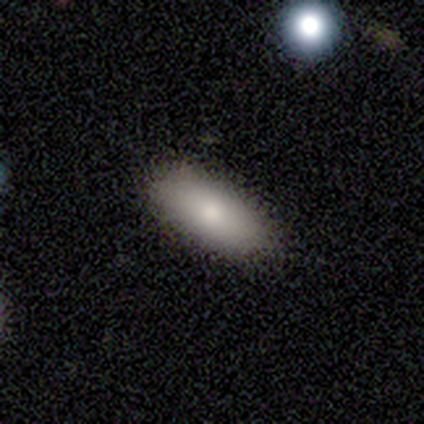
This is clearly a smooth galaxy (83%). How rounded: clearly in between (80%). Merging: clearly none (100%).